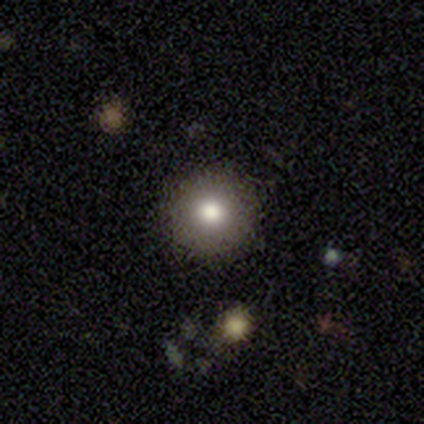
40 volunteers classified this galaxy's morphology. type=smooth (72%); roundness=round (100%); merging=none (85%).